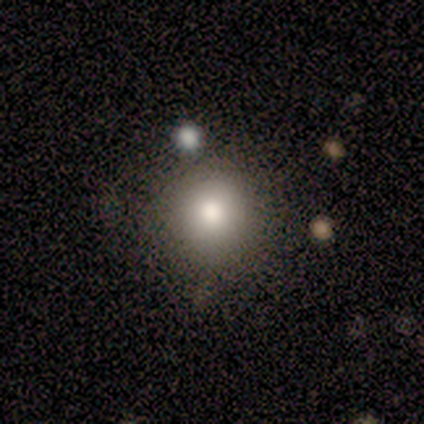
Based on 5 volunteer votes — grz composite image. It shows a smooth galaxy with no disk features (100%) that is round (100%). Merging: none (80%).